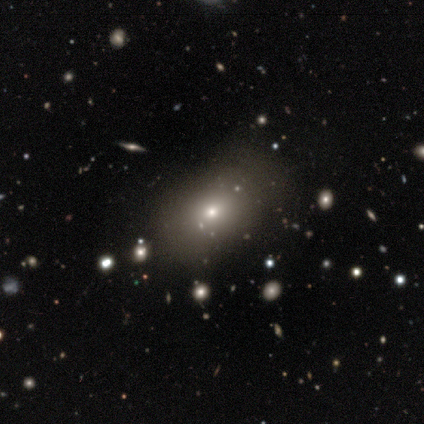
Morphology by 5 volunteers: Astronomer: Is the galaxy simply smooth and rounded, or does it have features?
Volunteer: smooth — 80%.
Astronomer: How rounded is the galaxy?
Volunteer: in between — 75%.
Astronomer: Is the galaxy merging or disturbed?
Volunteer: none — 100%.